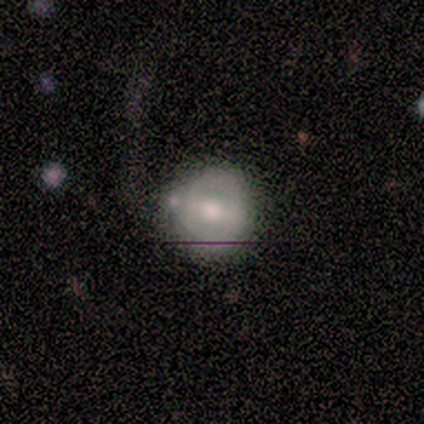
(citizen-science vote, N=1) featured or disk 100%, smooth 0%, star or artifact 0%. Down the decision tree: edge-on disk — yes (100%); edge-on bulge — none (100%); merging — major disturbance (100%).